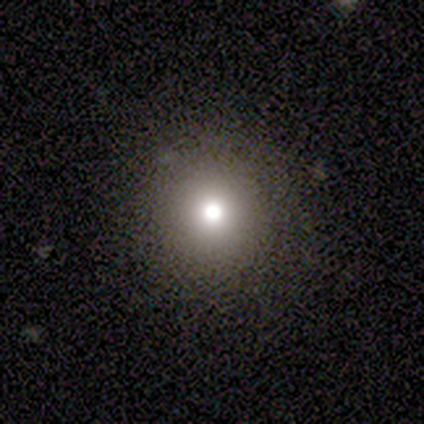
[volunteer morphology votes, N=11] smooth 91%, featured or disk 9%, star or artifact 0%. Down the decision tree: how rounded — round (100%); merging — none (100%).